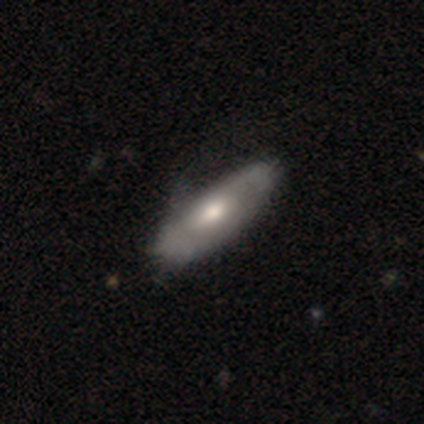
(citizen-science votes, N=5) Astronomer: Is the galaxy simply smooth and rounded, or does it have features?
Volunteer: featured or disk — 60% (runner-up: smooth, 40%).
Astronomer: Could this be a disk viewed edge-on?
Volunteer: no — 67%.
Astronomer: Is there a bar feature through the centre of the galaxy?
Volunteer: weak — 50%, tied with no at 50%.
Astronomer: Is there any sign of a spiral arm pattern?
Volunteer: yes — 100%.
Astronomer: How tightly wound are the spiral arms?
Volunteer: tight — 50%, tied with loose at 50%.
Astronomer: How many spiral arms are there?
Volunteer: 2 — 50%, tied with can't tell at 50%.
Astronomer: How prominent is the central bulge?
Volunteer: large — 50%, tied with small at 50%.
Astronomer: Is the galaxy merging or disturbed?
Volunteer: none — 80%.